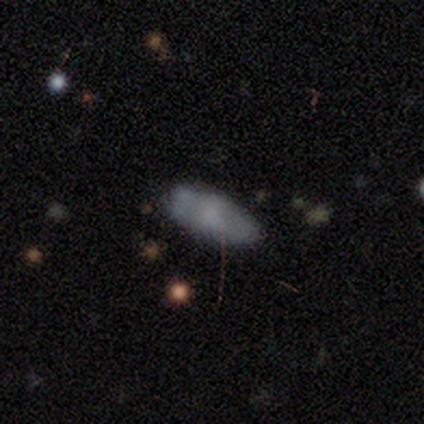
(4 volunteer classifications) Morphology: type=smooth (75%); roundness=in between (100%); merging=none (75%).